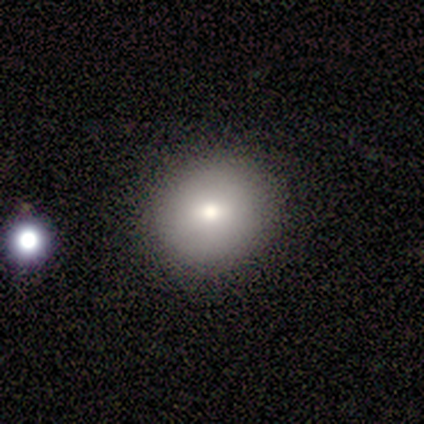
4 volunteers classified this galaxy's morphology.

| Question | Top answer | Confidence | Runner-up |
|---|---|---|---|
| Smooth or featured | smooth | 50% | tied: featured or disk (50%) |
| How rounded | round | 50% | tied: in between (50%) |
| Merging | none | 100% | — |